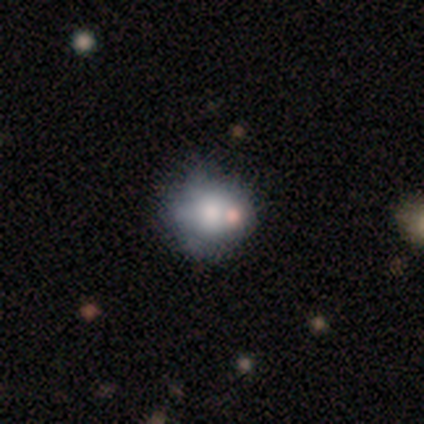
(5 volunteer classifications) Morphology: type=smooth (60%); roundness=round (100%); merging=none (75%).